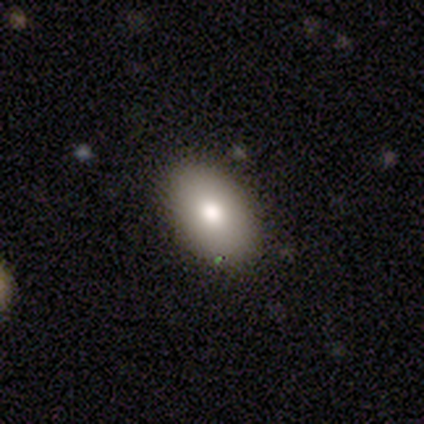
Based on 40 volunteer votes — A smooth galaxy with no disk features (82%) that is in between round and cigar-shaped (85%).

Vote fractions:
- Smooth or featured? smooth: 82% / star or artifact: 10% / featured or disk: 8%
- How rounded? in between: 85% / round: 12% / cigar-shaped: 3%
- Merging? none: 83% / minor disturbance: 17% / major disturbance: 0% / merger: 0%